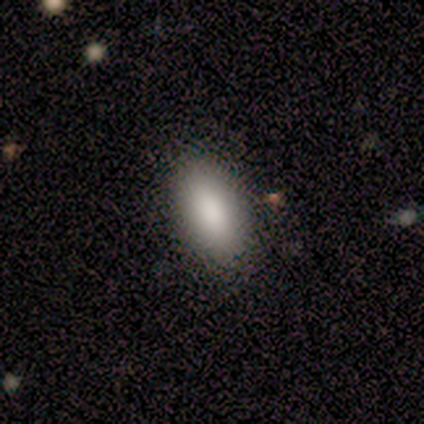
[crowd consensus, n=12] smooth-or-featured: smooth: 83% | featured or disk: 8% | star or artifact: 8%
  how-rounded: in between: 100% | round: 0% | cigar-shaped: 0%
  merging: none: 73% | minor disturbance: 18% | major disturbance: 9% | merger: 0%